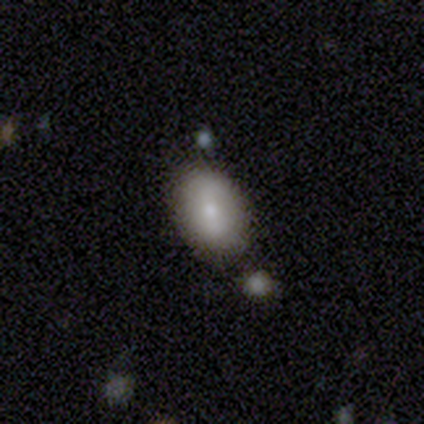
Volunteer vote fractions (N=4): smooth_or_featured: smooth (p=0.75) [alt: star or artifact p=0.25]
how_rounded: in between (p=1.00)
merging: none (p=1.00)